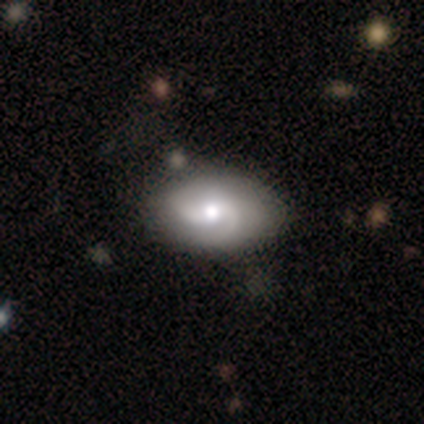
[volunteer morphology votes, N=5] Smooth or featured? featured or disk (80%)
Edge-on disk? no (100%)
Bar? no (100%)
Spiral arms? yes (100%)
Spiral winding? tight (75%)
Spiral arm count? 2 (50%, tied with can't tell)
Bulge size? small (75%)
Merging? none (60%)